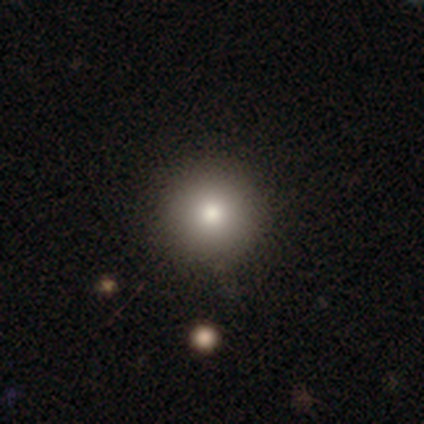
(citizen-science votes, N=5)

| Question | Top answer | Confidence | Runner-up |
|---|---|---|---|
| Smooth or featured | smooth | 100% | — |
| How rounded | round | 100% | — |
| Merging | none | 80% | minor disturbance (20%) |